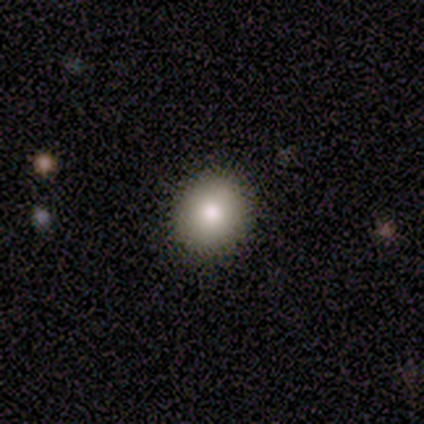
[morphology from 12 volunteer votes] A smooth galaxy with no disk features (83%) that is round (60%). Merging: none (83%).